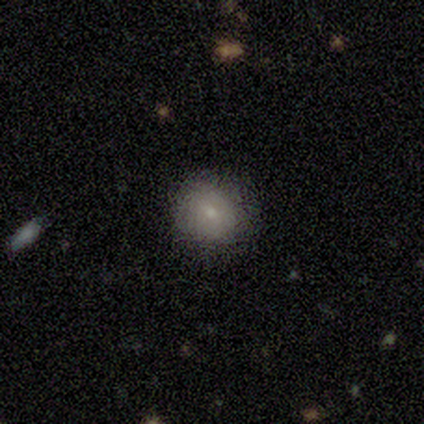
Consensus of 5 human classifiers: Smooth or featured? 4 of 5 (80%) said smooth. How rounded? 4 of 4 (100%) said round. Merging? 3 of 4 (75%) said none.